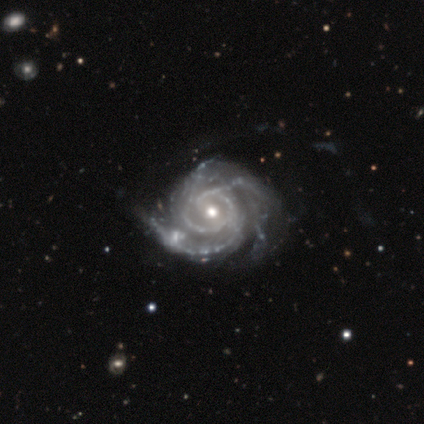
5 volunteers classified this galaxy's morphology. Smooth or featured? featured or disk (100%)
Edge-on disk? no (100%)
Bar? weak (60%)
Spiral arms? yes (100%)
Spiral winding? tight (100%)
Spiral arm count? 3 (60%)
Bulge size? moderate (60%)
Merging? none (60%)